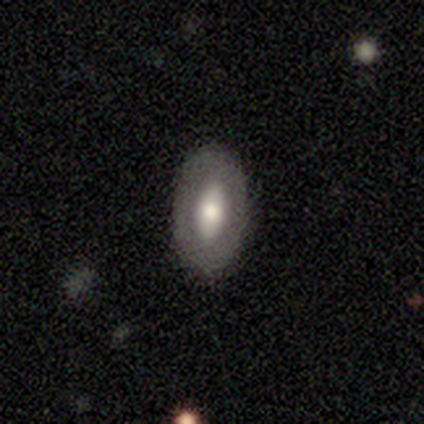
A smooth galaxy with no disk features (70%) that is in between round and cigar-shaped (89%). Merging: none (88%).